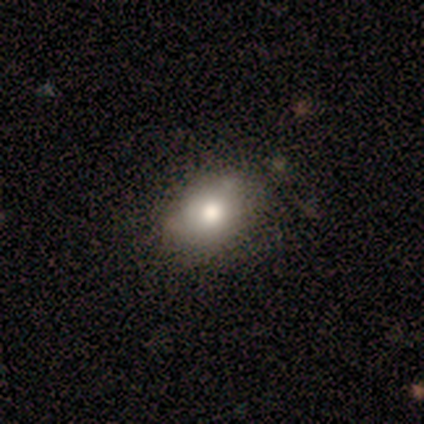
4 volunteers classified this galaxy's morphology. Overall: smooth (50%; featured or disk 25%). How rounded: in between (100%). Merging: none (67%; minor disturbance 33%).